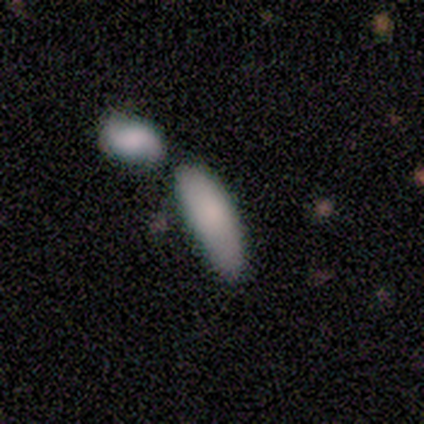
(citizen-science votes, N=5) Smooth or featured? smooth (100%)
How rounded? in between (80%)
Merging? none (60%)